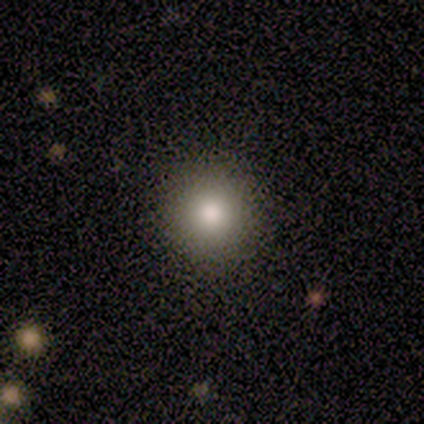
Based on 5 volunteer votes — Smooth or featured?
  - smooth: 100% *
  - featured or disk: 0%
  - star or artifact: 0%
How rounded?
  - round: 100% *
  - in between: 0%
  - cigar-shaped: 0%
Merging?
  - none: 100% *
  - minor disturbance: 0%
  - major disturbance: 0%
  - merger: 0%